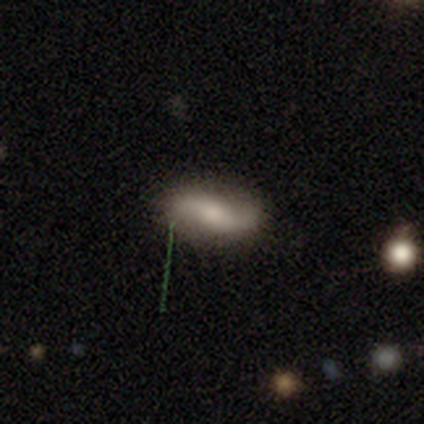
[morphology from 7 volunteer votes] Volunteers were most divided on "smooth or featured": smooth: 43%, featured or disk: 29%, star or artifact: 29%. More confident: how rounded — in between (67%); merging — none (60%).